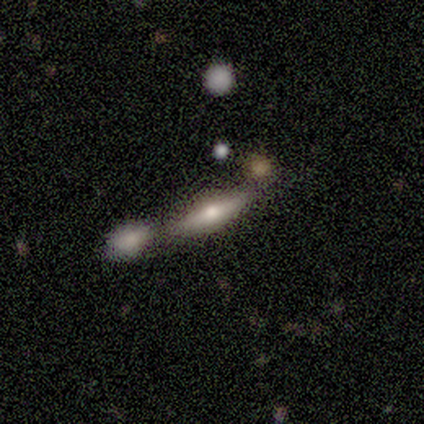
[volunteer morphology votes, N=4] A featured or disk galaxy (75%) viewed edge-on (100%) with a rounded central bulge (100%). Merging: none (50%).